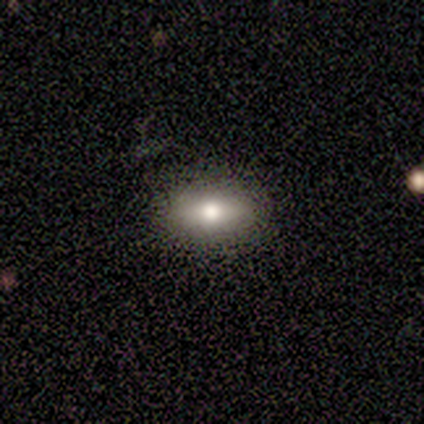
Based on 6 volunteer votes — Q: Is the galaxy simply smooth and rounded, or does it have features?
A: smooth — 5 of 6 (83%).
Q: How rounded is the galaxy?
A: in between — 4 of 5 (80%).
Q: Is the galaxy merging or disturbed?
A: none — 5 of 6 (83%).